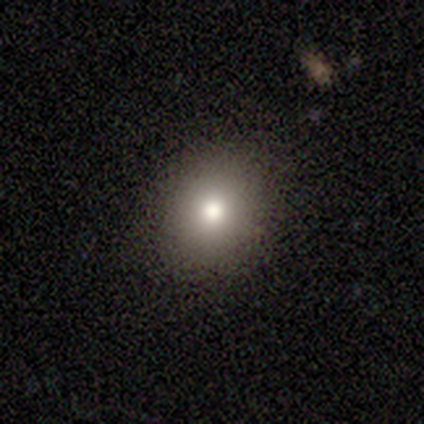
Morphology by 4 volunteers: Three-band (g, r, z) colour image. It shows a smooth galaxy with no disk features (50%) that is round (50%, tied with in between). Merging: none (100%).